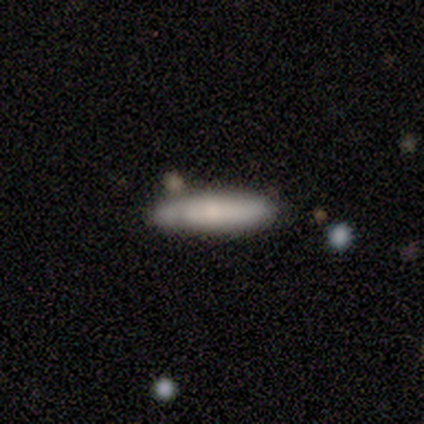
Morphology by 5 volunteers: smooth_or_featured: featured or disk (p=0.60) [alt: smooth p=0.40]
disk_edge_on: yes (p=0.67) [alt: no p=0.33]
edge_on_bulge: none (p=0.50) [tied with: rounded p=0.50]
merging: none (p=0.40) [tied with: minor disturbance p=0.40]